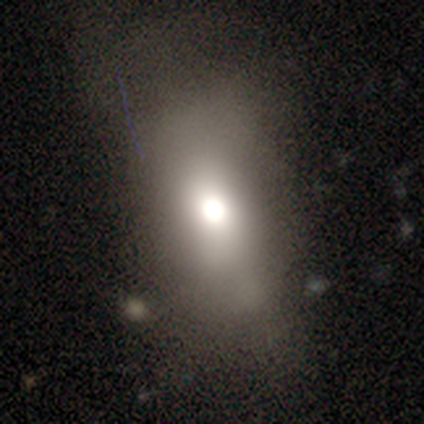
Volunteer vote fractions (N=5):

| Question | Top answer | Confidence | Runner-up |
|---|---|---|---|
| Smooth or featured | smooth | 40% | tied: featured or disk (40%) |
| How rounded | round | 50% | tied: in between (50%) |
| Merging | none | 75% | minor disturbance (25%) |